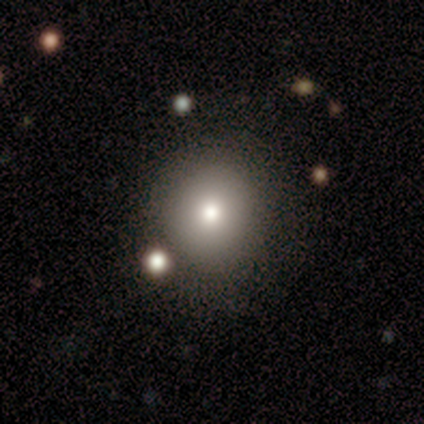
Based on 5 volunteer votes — This appears to be a smooth galaxy with no disk features (80%) that is round (100%). Merging: none (100%).